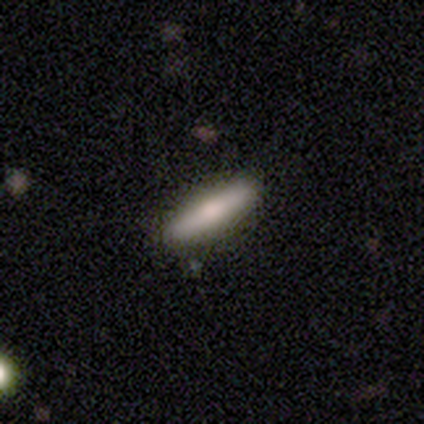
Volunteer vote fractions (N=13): Volunteers were most divided on "smooth or featured": smooth: 62%, featured or disk: 31%, star or artifact: 8%. More confident: how rounded — cigar-shaped (100%); merging — none (83%).